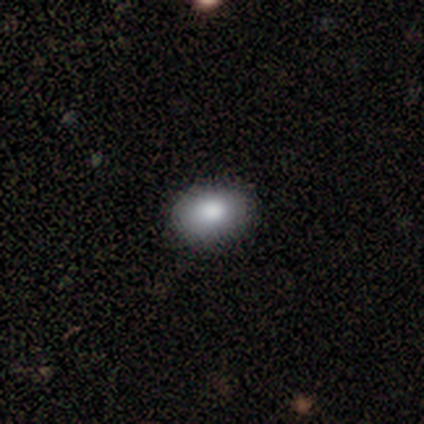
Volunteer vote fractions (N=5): Smooth or featured: smooth — 80% (featured or disk — 20%)
How rounded: in between — 100%
Merging: none — 100%